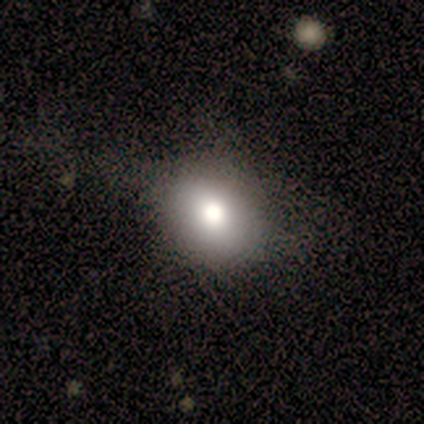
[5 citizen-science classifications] Smooth or featured?
  - smooth: 40% * (tied)
  - featured or disk: 40% * (tied)
  - star or artifact: 20%
How rounded?
  - in between: 100% *
  - round: 0%
  - cigar-shaped: 0%
Merging?
  - none: 75% *
  - minor disturbance: 25%
  - major disturbance: 0%
  - merger: 0%